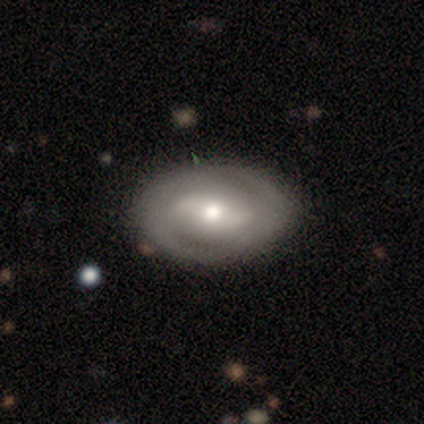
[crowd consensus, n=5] Smooth or featured: featured or disk — 60% (smooth — 40%)
Edge-on disk: no — 100%
Bar: strong — 33% (tied with weak — 33%; no — 33%)
Spiral arms: yes — 100%
Spiral winding: tight — 67% (medium — 33%)
Spiral arm count: 2 — 100%
Bulge size: large — 33% (tied with moderate — 33%; small — 33%)
Merging: none — 60% (major disturbance — 20%)